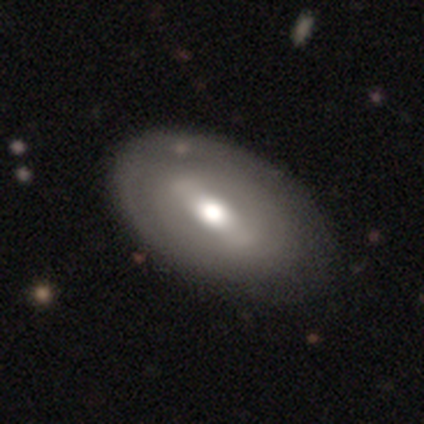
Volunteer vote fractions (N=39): Smooth or featured? featured or disk (56%)
Edge-on disk? no (95%)
Bar? strong (67%)
Spiral arms? no (71%)
Bulge size? moderate (52%)
Merging? none (58%)